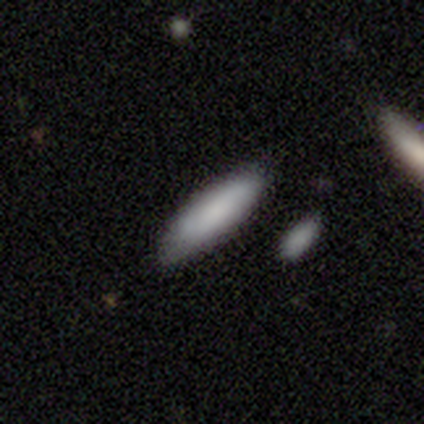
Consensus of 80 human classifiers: Smooth or featured?
  - smooth: 82% *
  - featured or disk: 15%
  - star or artifact: 2%
How rounded?
  - cigar-shaped: 53% *
  - in between: 47%
  - round: 0%
Merging?
  - none: 47% *
  - merger: 9%
  - minor disturbance: 6%
  - major disturbance: 1%